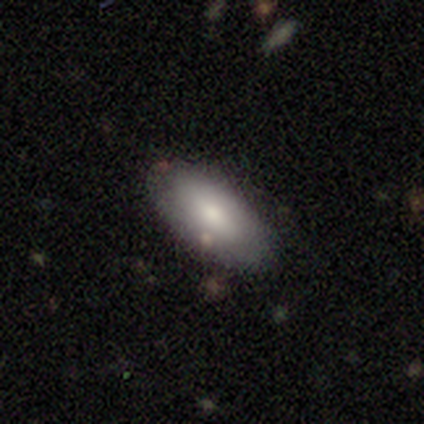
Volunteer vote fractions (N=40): This is clearly a smooth galaxy (82%). How rounded: clearly in between (91%). Merging: likely none (72%).